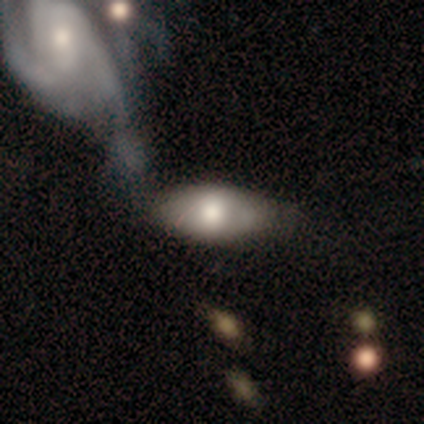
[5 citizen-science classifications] Q: Smooth or featured?
A: smooth (60%); runner-up: featured or disk (40%)
Q: How rounded?
A: in between (100%)
Q: Merging?
A: none (40%); runner-up: minor disturbance (20%)